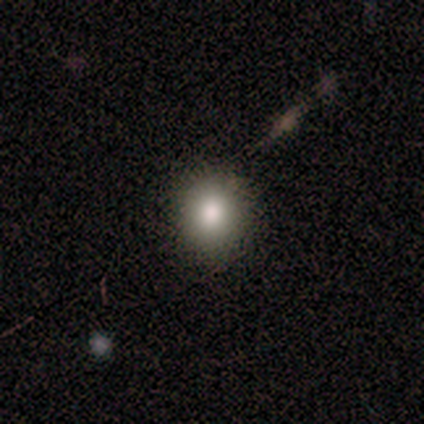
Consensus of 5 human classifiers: smooth_or_featured: smooth (p=0.60) [alt: featured or disk p=0.20]
how_rounded: round (p=1.00)
merging: none (p=0.75) [alt: minor disturbance p=0.25]